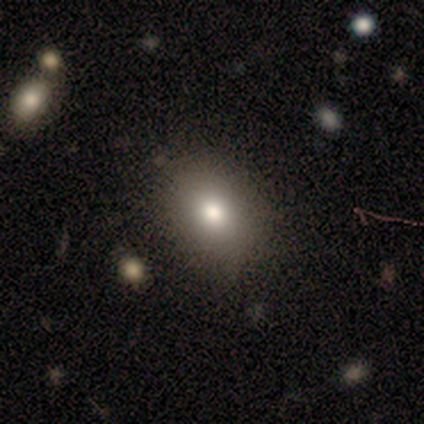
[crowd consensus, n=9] Q: Smooth or featured?
A: smooth (89%); runner-up: star or artifact (11%)
Q: How rounded?
A: round (50%); tied with: in between (50%)
Q: Merging?
A: none (75%); runner-up: minor disturbance (25%)